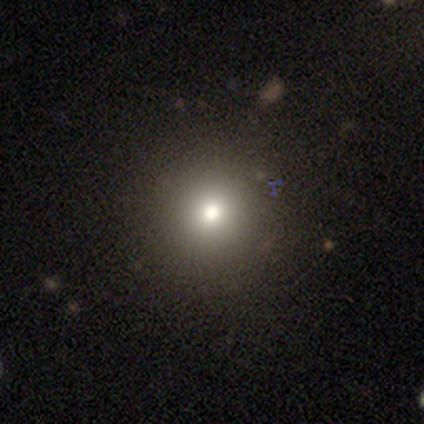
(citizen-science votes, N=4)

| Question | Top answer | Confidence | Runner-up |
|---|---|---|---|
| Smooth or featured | smooth | 75% | star or artifact (25%) |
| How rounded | round | 100% | — |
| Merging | none | 100% | — |